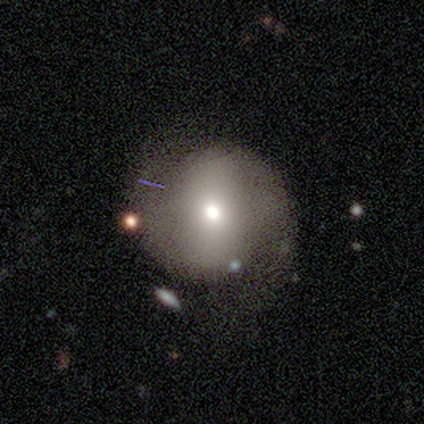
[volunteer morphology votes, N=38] This appears to be a smooth galaxy with no disk features (50%) that is round (95%). Merging: none (63%).